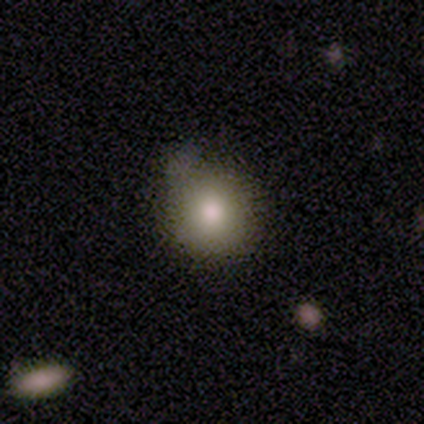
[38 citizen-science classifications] This appears to be a smooth galaxy with no disk features (76%) that is round (83%). Merging: none (58%).